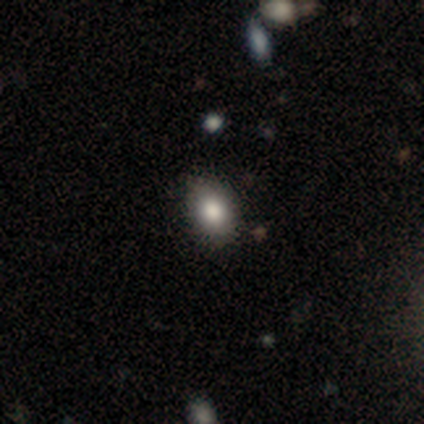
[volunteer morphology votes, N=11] Smooth or featured?
  - smooth: 73% *
  - star or artifact: 18%
  - featured or disk: 9%
How rounded?
  - in between: 62% *
  - round: 38%
  - cigar-shaped: 0%
Merging?
  - none: 89% *
  - minor disturbance: 11%
  - major disturbance: 0%
  - merger: 0%